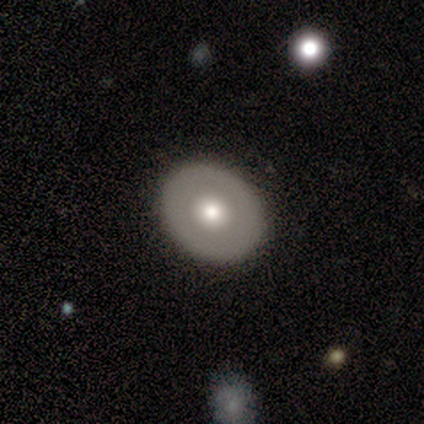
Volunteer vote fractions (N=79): This appears to be a smooth galaxy with no disk features (52%) that is round (73%). Merging: none (47%).